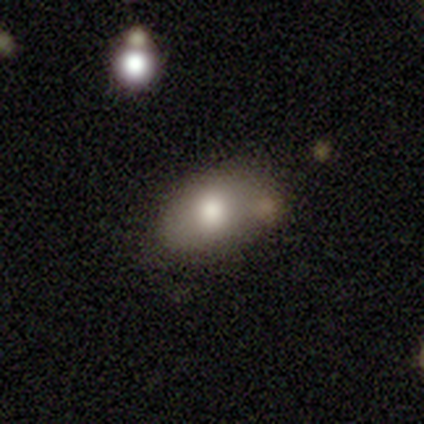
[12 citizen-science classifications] Smooth or featured? smooth (83%)
How rounded? in between (100%)
Merging? none (75%)